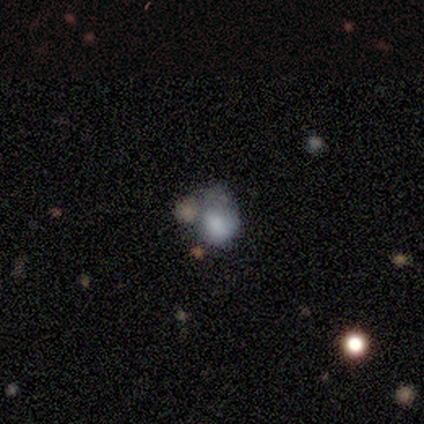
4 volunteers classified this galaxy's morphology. smooth_or_featured: smooth (p=0.50) [alt: featured or disk p=0.25]
how_rounded: round (p=0.50) [tied with: in between p=0.50]
merging: none (p=0.67) [alt: merger p=0.33]